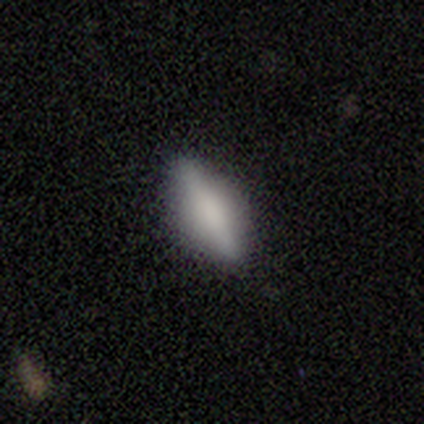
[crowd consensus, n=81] A smooth galaxy with no disk features (63%) that is in between round and cigar-shaped (63%). Merging: none (49%).